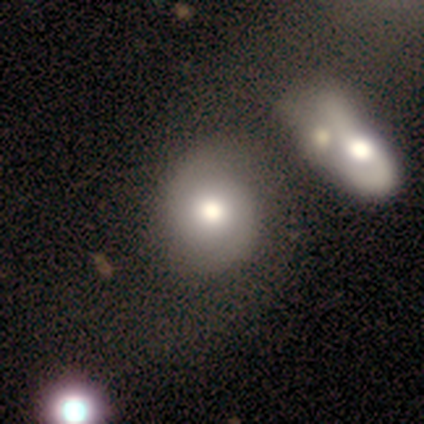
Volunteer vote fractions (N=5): Morphology: type=smooth (40%, tied with featured or disk); roundness=round (50%, tied with in between); merging=merger (50%).